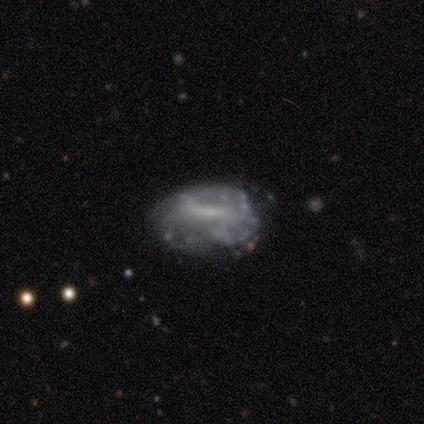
Smooth or featured? featured or disk (80%)
Edge-on disk? no (100%)
Bar? weak (50%)
Spiral arms? yes (50%, tied with no)
Spiral winding? tight (50%, tied with medium)
Spiral arm count? 2 (50%, tied with can't tell)
Bulge size? moderate (50%)
Merging? minor disturbance (50%)